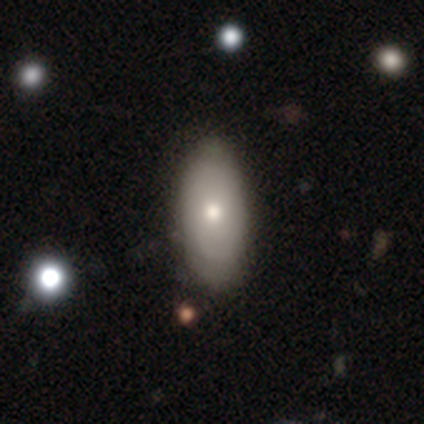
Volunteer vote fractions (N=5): Q: Smooth or featured?
A: smooth (80%); runner-up: featured or disk (20%)
Q: How rounded?
A: in between (100%)
Q: Merging?
A: none (80%); runner-up: minor disturbance (20%)